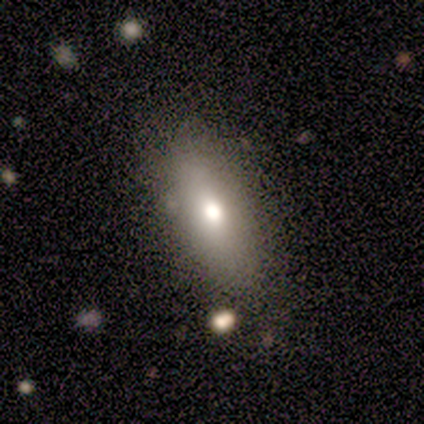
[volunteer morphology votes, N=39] A smooth galaxy with no disk features (74%) that is in between round and cigar-shaped (48%, tied with cigar-shaped). Merging: none (69%).